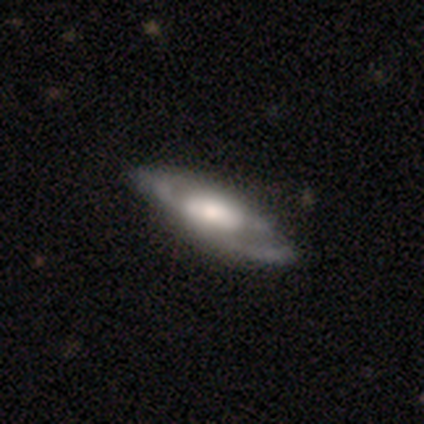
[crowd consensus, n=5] smooth-or-featured: featured or disk: 100% | smooth: 0% | star or artifact: 0%
  disk-edge-on: no: 60% | yes: 40%
    bar: no: 67% | weak: 33% | strong: 0%
    has-spiral-arms: yes: 67% | no: 33%
      spiral-winding: medium: 100% | tight: 0% | loose: 0%
      spiral-arm-count: 2: 50% (tied) | can't tell: 50% (tied) | 1: 0% | 3: 0% | 4: 0% | more than 4: 0%
    bulge-size: large: 100% | dominant: 0% | moderate: 0% | small: 0% | none: 0%
  merging: none: 40% (tied) | minor disturbance: 40% (tied) | major disturbance: 20% | merger: 0%